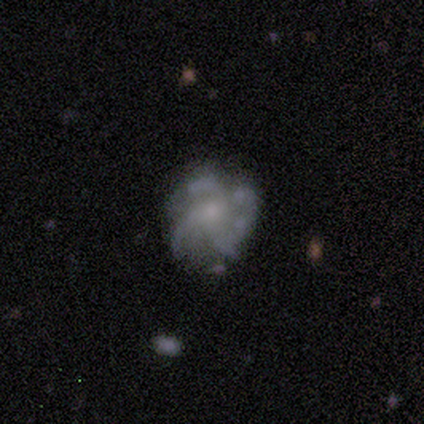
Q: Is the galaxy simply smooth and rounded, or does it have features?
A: featured or disk — 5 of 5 (100%).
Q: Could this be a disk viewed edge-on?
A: no — 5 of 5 (100%).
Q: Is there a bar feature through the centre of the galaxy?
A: no — 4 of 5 (80%).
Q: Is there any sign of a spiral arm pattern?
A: yes — 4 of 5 (80%).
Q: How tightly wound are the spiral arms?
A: medium — 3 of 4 (75%).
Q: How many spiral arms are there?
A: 4 — 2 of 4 (50%).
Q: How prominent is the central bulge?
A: small — 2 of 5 (40%, tied with none).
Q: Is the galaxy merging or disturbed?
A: none — 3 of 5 (60%).